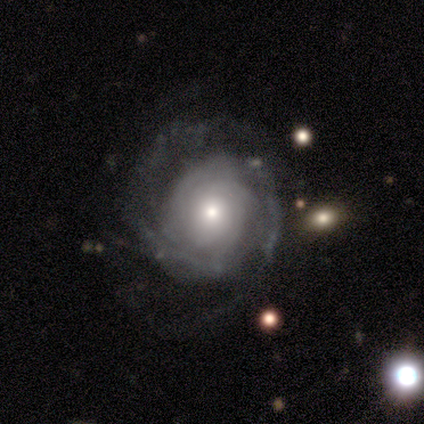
featured or disk 100%, smooth 0%, star or artifact 0%. Down the decision tree: edge-on disk — no (100%); bar — no (80%); spiral arms — yes (100%); spiral arm count — can't tell (60%); spiral winding — tight (80%); bulge size — moderate (60%); merging — none (40%, tied with minor disturbance).